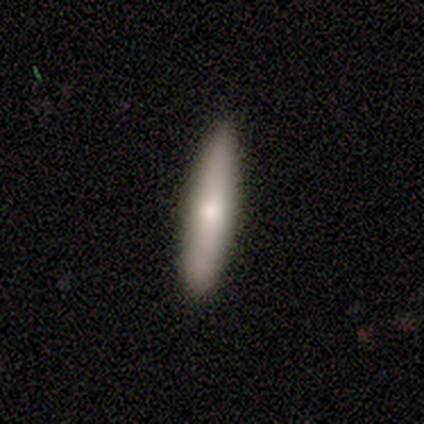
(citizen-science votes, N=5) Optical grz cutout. It shows a smooth galaxy with no disk features (100%) that is cigar-shaped (100%). Merging: none (40%, tied with minor disturbance).